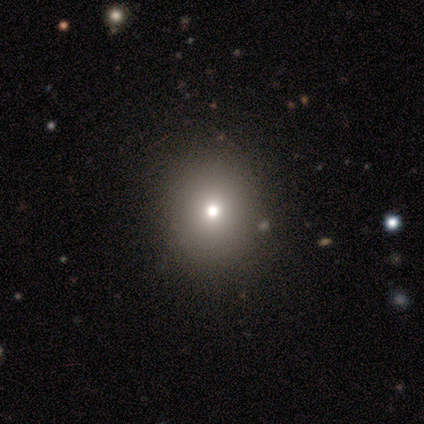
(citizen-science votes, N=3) Smooth or featured?
  - smooth: 100% *
  - featured or disk: 0%
  - star or artifact: 0%
How rounded?
  - round: 100% *
  - in between: 0%
  - cigar-shaped: 0%
Merging?
  - none: 67% *
  - minor disturbance: 33%
  - major disturbance: 0%
  - merger: 0%